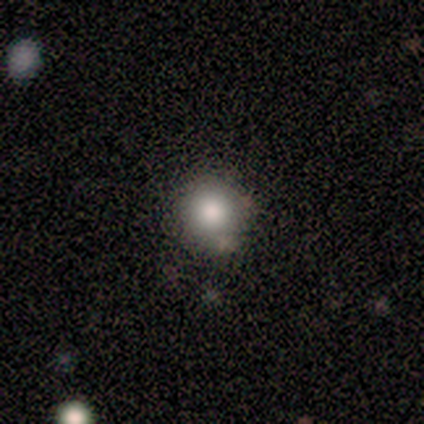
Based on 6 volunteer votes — smooth_or_featured: smooth (p=0.83) [alt: featured or disk p=0.17]
how_rounded: round (p=1.00)
merging: none (p=0.83) [alt: minor disturbance p=0.17]